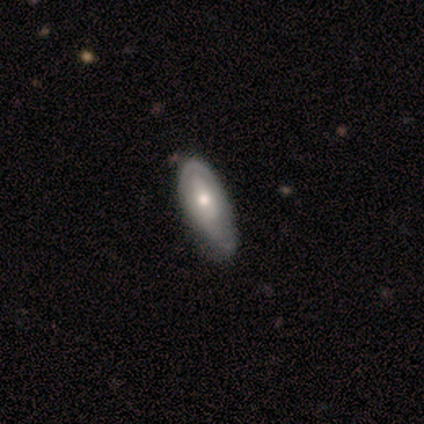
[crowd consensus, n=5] This is likely a featured or disk galaxy (60%). It is clearly not viewed edge-on (100%). Bar: likely no (67%). Spiral arm pattern: likely no (67%). Central bulge: likely small (67%). Merging: marginally minor disturbance (40%, tied with major disturbance).